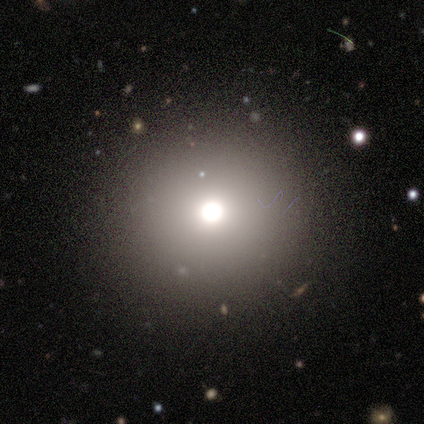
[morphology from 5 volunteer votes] Smooth or featured: star or artifact — 80% (smooth — 20%)